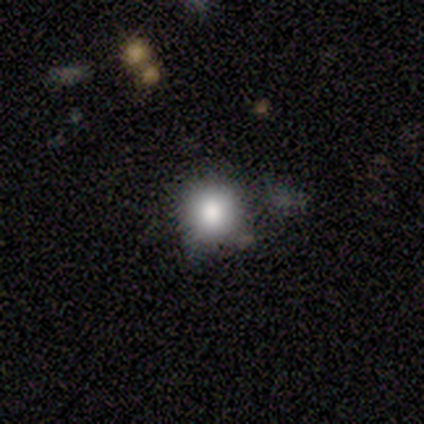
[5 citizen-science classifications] Volunteers were most divided on "how rounded": round: 75%, cigar-shaped: 25%, in between: 0%. More confident: smooth or featured — smooth (80%); merging — none (75%).